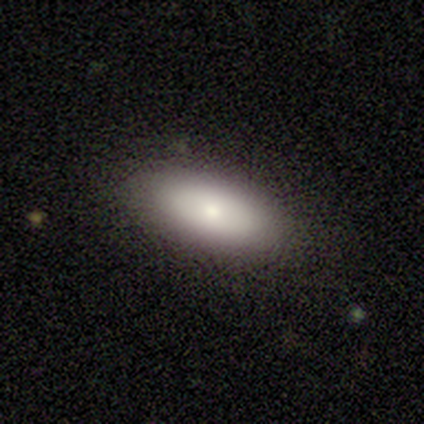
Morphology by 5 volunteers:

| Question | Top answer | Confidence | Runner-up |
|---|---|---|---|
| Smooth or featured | smooth | 80% | featured or disk (20%) |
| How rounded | in between | 75% | cigar-shaped (25%) |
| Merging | none | 100% | — |